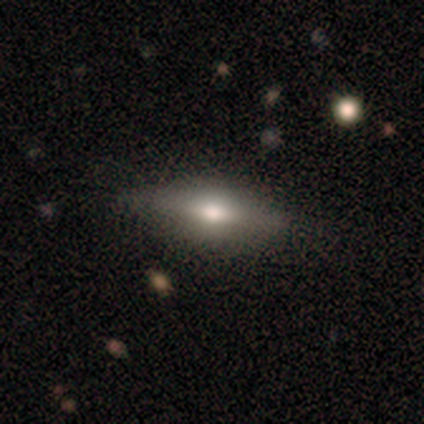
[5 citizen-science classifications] Smooth or featured? 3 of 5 (60%) said smooth. How rounded? 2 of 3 (67%) said cigar-shaped. Merging? 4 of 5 (80%) said none.